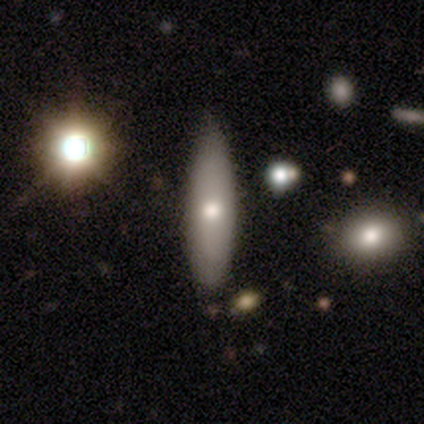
A smooth galaxy with no disk features (50%, tied with featured or disk) that is in between round and cigar-shaped (50%, tied with cigar-shaped).

Vote fractions:
- Smooth or featured? smooth: 50% (tied) / featured or disk: 50% (tied) / star or artifact: 0%
- How rounded? in between: 50% (tied) / cigar-shaped: 50% (tied) / round: 0%
- Merging? none: 100% / minor disturbance: 0% / major disturbance: 0% / merger: 0%